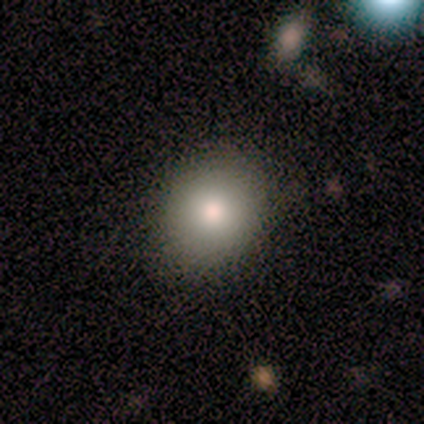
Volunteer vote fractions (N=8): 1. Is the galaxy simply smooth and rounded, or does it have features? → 100% smooth, 0% featured or disk, 0% star or artifact.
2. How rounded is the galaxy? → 50% round (tied), 50% in between (tied), 0% cigar-shaped.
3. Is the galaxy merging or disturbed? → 88% none, 12% minor disturbance, 0% major disturbance, 0% merger.